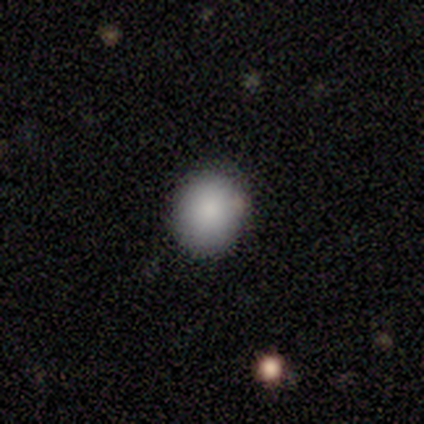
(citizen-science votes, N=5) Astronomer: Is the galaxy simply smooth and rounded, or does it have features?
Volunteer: smooth — 100%.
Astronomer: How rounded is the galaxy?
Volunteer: round — 100%.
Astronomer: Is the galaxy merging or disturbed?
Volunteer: none — 80%.